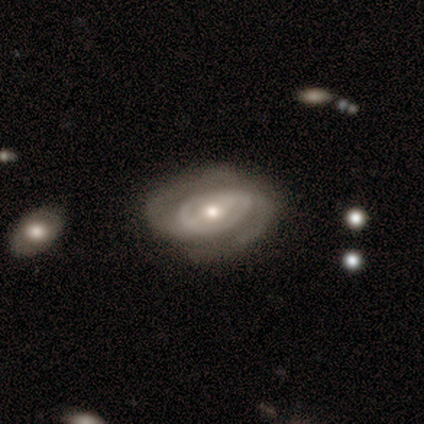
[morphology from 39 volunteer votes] Overall: featured or disk (95%). Edge-on disk: no (86%). Bar: no (41%; weak 34%). Spiral arms: yes (94%). Spiral arm count: 2 (90%). Spiral winding: tight (53%; medium 40%). Bulge size: moderate (56%; small 38%). Merging: none (69%).